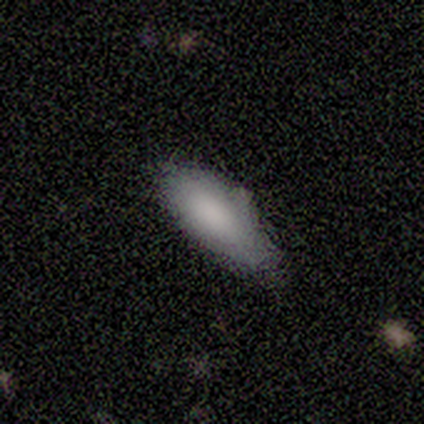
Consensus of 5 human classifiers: smooth-or-featured: smooth: 100% | featured or disk: 0% | star or artifact: 0%
  how-rounded: in between: 80% | cigar-shaped: 20% | round: 0%
  merging: none: 80% | minor disturbance: 20% | major disturbance: 0% | merger: 0%